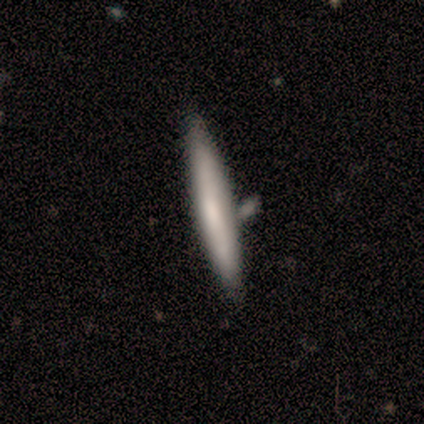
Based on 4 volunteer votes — Smooth or featured? featured or disk (75%)
Edge-on disk? yes (100%)
Edge-on bulge? none (100%)
Merging? none (100%)